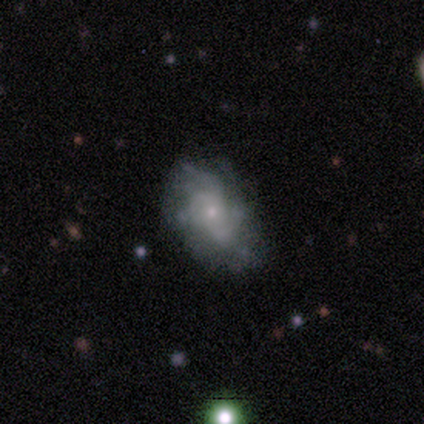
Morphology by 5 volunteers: Smooth or featured? featured or disk (60%)
Edge-on disk? no (67%)
Bar? no (100%)
Spiral arms? yes (100%)
Spiral winding? tight (50%, tied with medium)
Spiral arm count? 3 (50%, tied with 4)
Bulge size? small (100%)
Merging? none (80%)